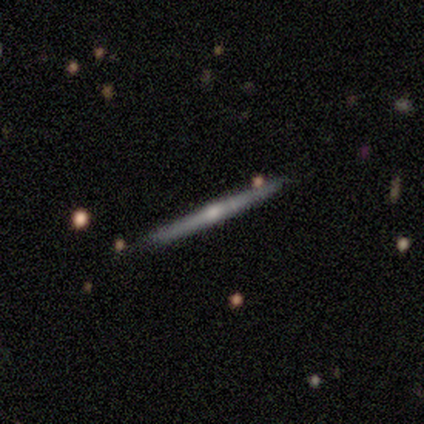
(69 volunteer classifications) This appears to be a featured or disk galaxy (80%) viewed edge-on (100%) with a rounded central bulge (80%). Merging: none (94%).